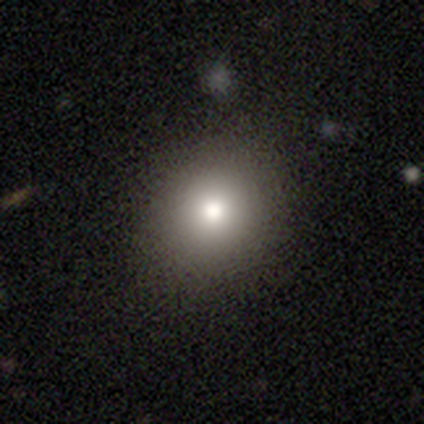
Smooth or featured?
  - smooth: 92% *
  - featured or disk: 8%
  - star or artifact: 0%
How rounded?
  - round: 83% *
  - in between: 17%
  - cigar-shaped: 0%
Merging?
  - none: 100% *
  - minor disturbance: 0%
  - major disturbance: 0%
  - merger: 0%